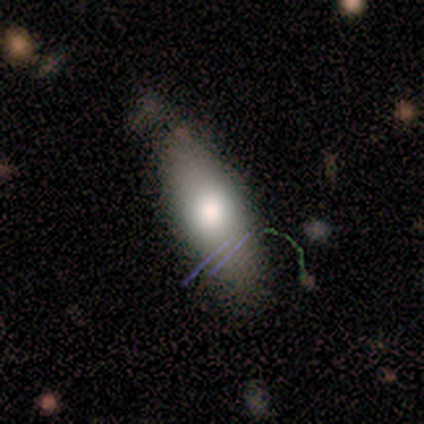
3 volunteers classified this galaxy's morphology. A smooth galaxy with no disk features (100%) that is in between round and cigar-shaped (67%). Merging: none (100%).